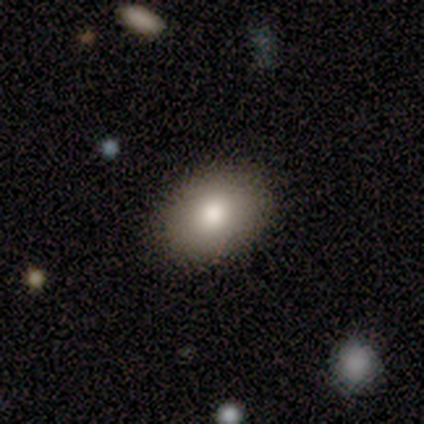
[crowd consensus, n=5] smooth 80%, star or artifact 20%, featured or disk 0%. Down the decision tree: how rounded — in between (100%); merging — none (100%).